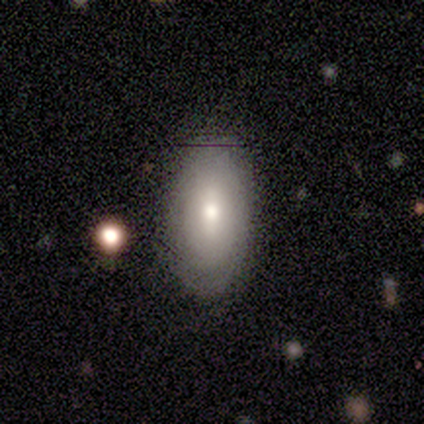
smooth 56%, featured or disk 44%, star or artifact 0%. Down the decision tree: how rounded — in between (100%); merging — none (100%).